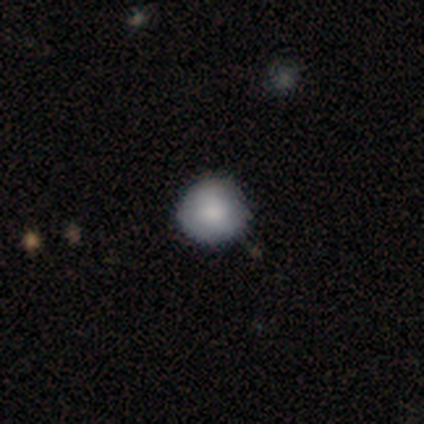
Smooth or featured?
  - smooth: 75% *
  - featured or disk: 15%
  - star or artifact: 10%
How rounded?
  - round: 93% *
  - in between: 7%
  - cigar-shaped: 0%
Merging?
  - none: 61% *
  - minor disturbance: 11%
  - merger: 6%
  - major disturbance: 3%